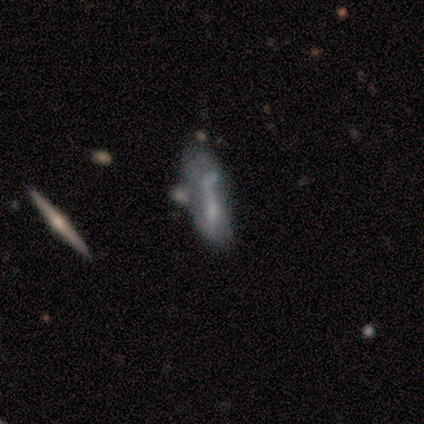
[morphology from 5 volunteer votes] smooth-or-featured: smooth: 80% | featured or disk: 20% | star or artifact: 0%
  how-rounded: in between: 50% (tied) | cigar-shaped: 50% (tied) | round: 0%
  merging: minor disturbance: 40% (tied) | merger: 40% (tied) | major disturbance: 20% | none: 0%